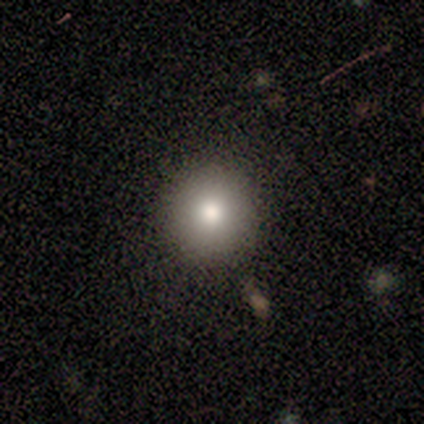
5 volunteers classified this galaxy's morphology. Smooth or featured: smooth — 80% (featured or disk — 20%)
How rounded: round — 100%
Merging: none — 80% (minor disturbance — 20%)